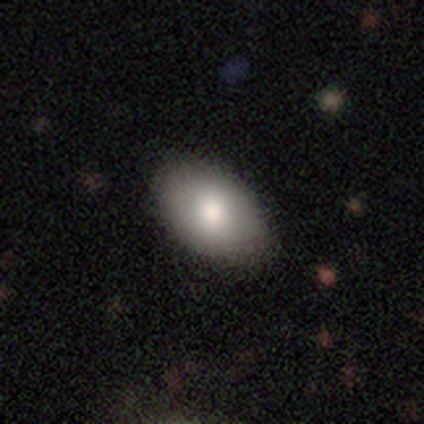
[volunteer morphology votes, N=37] Q: Smooth or featured?
A: smooth (84%); runner-up: star or artifact (11%)
Q: How rounded?
A: in between (94%); runner-up: round (6%)
Q: Merging?
A: none (88%); runner-up: minor disturbance (6%)